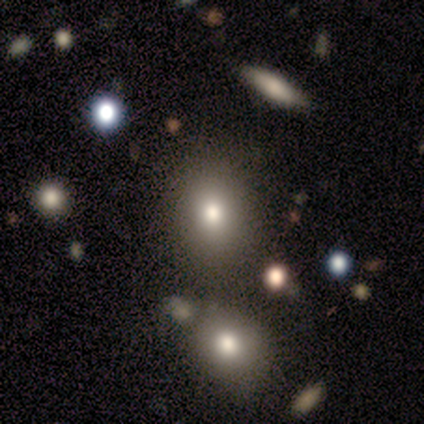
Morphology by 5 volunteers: Volunteers were most divided on "smooth or featured": star or artifact: 60%, smooth: 20%, featured or disk: 20%.